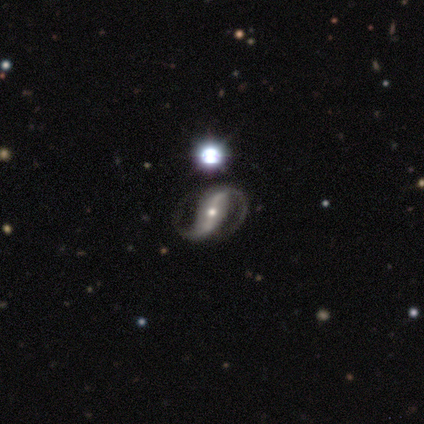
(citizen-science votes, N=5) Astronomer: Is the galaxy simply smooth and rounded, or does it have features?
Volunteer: featured or disk — 80%.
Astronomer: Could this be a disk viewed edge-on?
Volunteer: no — 100%.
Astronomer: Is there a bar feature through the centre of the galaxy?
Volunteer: strong — 100%.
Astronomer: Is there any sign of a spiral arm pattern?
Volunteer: yes — 100%.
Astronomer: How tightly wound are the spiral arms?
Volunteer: loose — 50%.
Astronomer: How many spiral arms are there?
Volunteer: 2 — 100%.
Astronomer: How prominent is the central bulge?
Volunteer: moderate — 75%.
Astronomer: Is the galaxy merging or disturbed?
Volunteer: none — 100%.